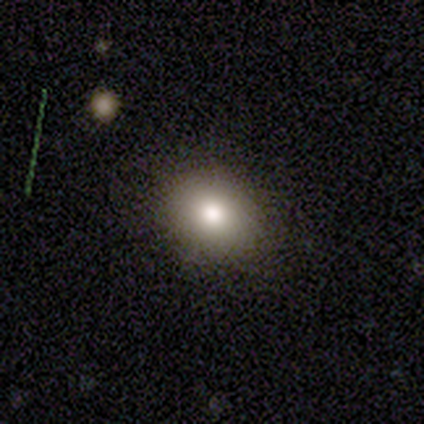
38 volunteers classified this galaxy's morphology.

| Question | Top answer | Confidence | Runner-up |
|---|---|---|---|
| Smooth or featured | smooth | 79% | featured or disk (16%) |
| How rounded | round | 67% | in between (33%) |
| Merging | none | 89% | minor disturbance (8%) |